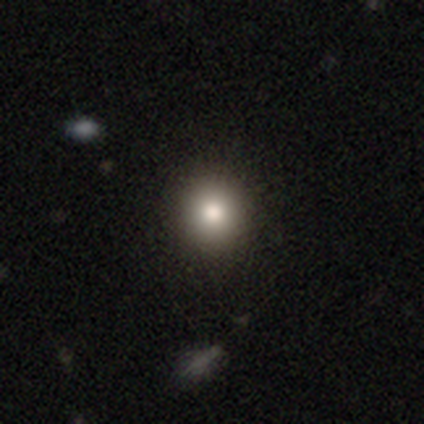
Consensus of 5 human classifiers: This appears to be a smooth galaxy with no disk features (80%) that is round (75%). Merging: none (75%).